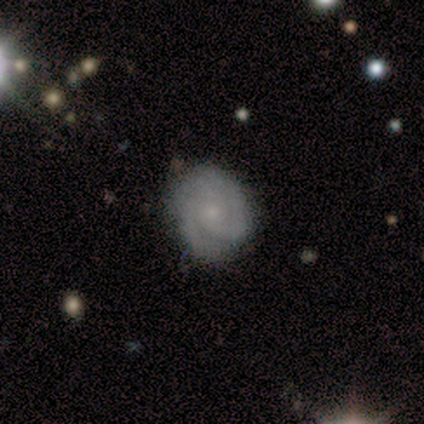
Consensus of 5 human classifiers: featured or disk 100%, smooth 0%, star or artifact 0%. Down the decision tree: edge-on disk — no (100%); bar — no (100%); spiral arms — yes (100%); spiral arm count — 2 (100%); spiral winding — tight (100%); bulge size — small (80%); merging — none (80%).